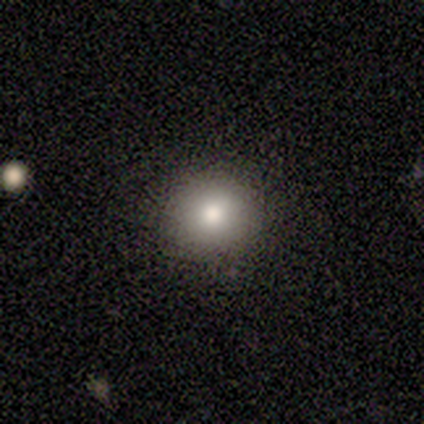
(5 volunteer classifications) A smooth galaxy with no disk features (100%) that is round (100%). Merging: none (100%).